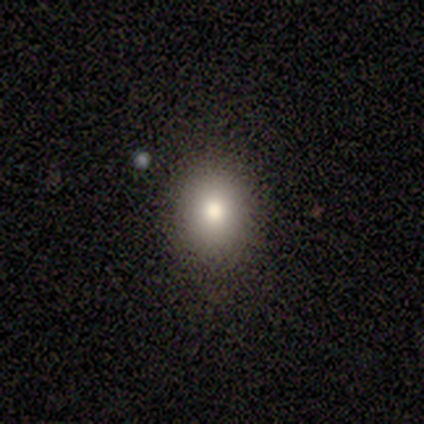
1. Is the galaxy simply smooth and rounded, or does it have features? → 100% smooth, 0% featured or disk, 0% star or artifact.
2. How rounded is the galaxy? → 75% in between, 25% round, 0% cigar-shaped.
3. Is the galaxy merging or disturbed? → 100% none, 0% minor disturbance, 0% major disturbance, 0% merger.